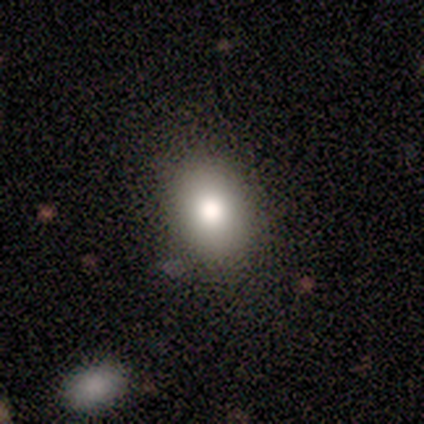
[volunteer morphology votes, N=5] Smooth or featured?
  - smooth: 100% *
  - featured or disk: 0%
  - star or artifact: 0%
How rounded?
  - round: 40% * (tied)
  - in between: 40% * (tied)
  - cigar-shaped: 20%
Merging?
  - none: 100% *
  - minor disturbance: 0%
  - major disturbance: 0%
  - merger: 0%